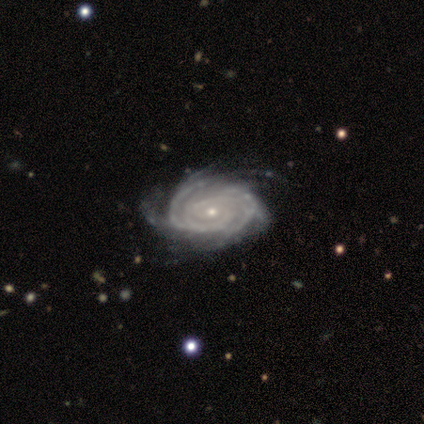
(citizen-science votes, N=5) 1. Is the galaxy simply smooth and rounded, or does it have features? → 100% featured or disk, 0% smooth, 0% star or artifact.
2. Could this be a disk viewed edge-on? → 100% no, 0% yes.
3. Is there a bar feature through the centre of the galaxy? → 60% no, 40% weak, 0% strong.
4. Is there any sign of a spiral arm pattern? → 100% yes, 0% no.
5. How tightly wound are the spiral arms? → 60% tight, 40% medium, 0% loose.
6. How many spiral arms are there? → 40% 3 (tied), 40% can't tell (tied), 20% 4, 0% 1, 0% 2, 0% more than 4.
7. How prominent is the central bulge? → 100% small, 0% dominant, 0% large, 0% moderate, 0% none.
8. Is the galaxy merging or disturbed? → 80% none, 20% minor disturbance, 0% major disturbance, 0% merger.